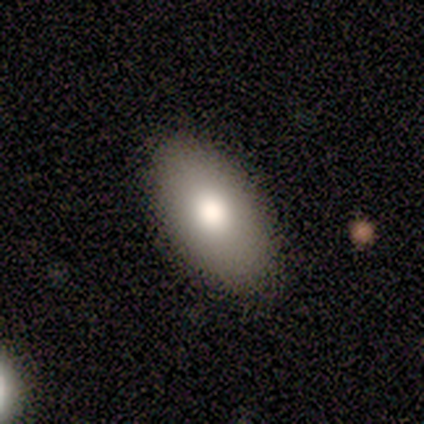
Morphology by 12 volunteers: smooth 92%, star or artifact 8%, featured or disk 0%. Down the decision tree: how rounded — in between (100%); merging — none (91%).